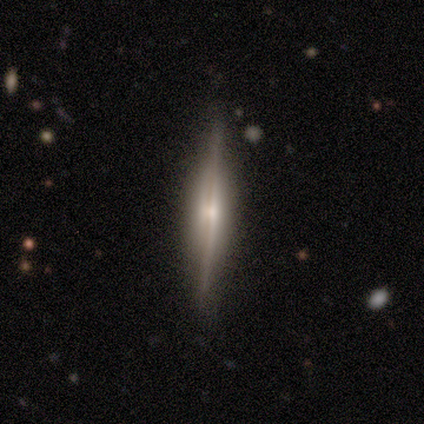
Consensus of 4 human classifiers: Overall: smooth (50%, tied with featured or disk). How rounded: cigar-shaped (100%). Merging: none (75%).